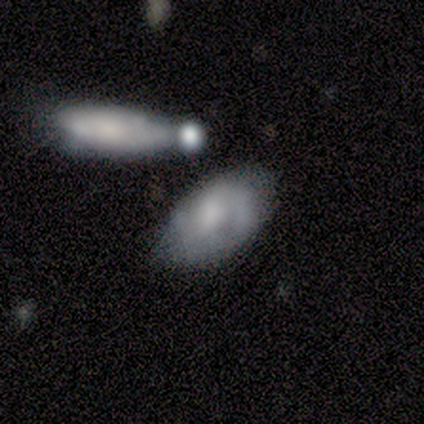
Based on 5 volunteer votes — This appears to be a smooth galaxy with no disk features (60%) that is in between round and cigar-shaped (67%). Merging: none (50%).